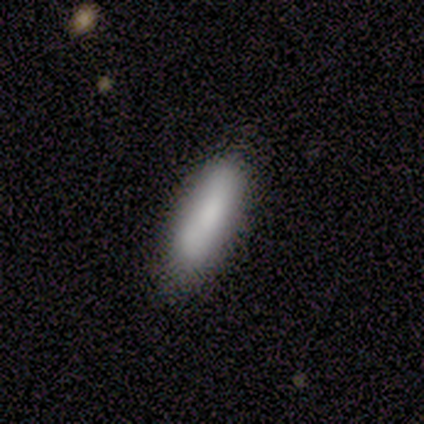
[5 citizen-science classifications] smooth 60%, featured or disk 40%, star or artifact 0%. Down the decision tree: how rounded — in between (100%); merging — none (60%).